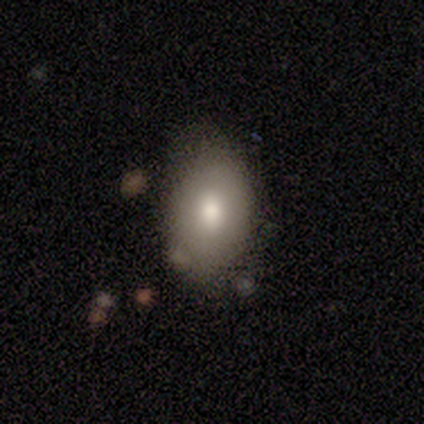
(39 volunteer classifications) This is likely a smooth galaxy (77%). How rounded: clearly in between (80%). Merging: likely none (68%).